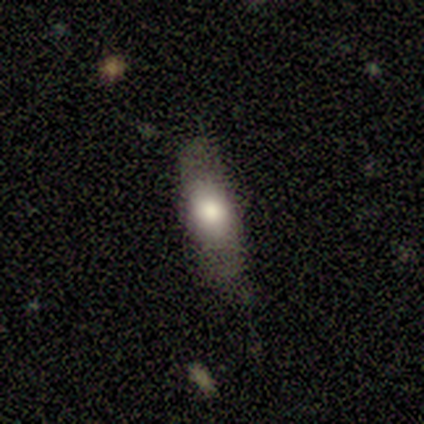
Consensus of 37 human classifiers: Overall: smooth (65%). How rounded: cigar-shaped (54%; in between 46%). Merging: none (72%).